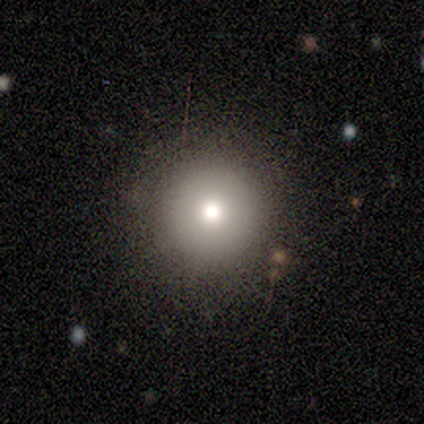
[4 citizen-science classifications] Smooth or featured? 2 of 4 (50%, tied with featured or disk) said smooth. How rounded? 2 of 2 (100%) said round. Merging? 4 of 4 (100%) said none.